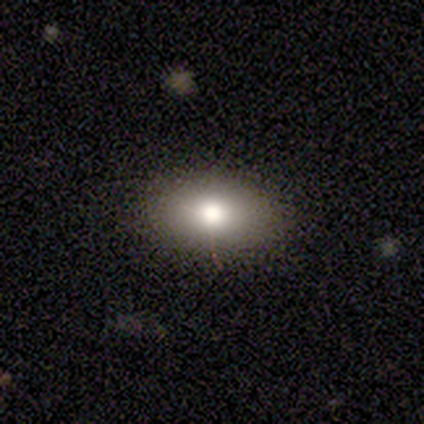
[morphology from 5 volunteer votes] A smooth galaxy with no disk features (100%) that is in between round and cigar-shaped (100%). Merging: none (100%).